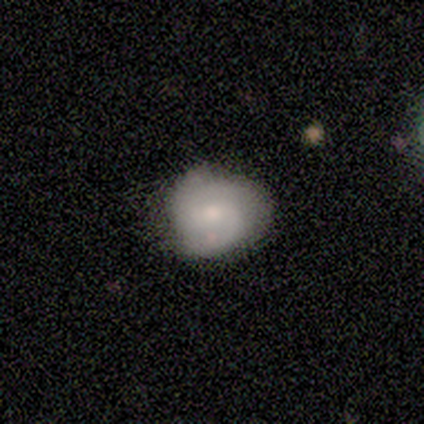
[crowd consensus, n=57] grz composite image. It shows a featured or disk galaxy (58%) with a weak bar (45%, tied with no), 2 (46%) medium (46%) spiral arms (85%) and a moderate central bulge (48%). Merging: none (63%).